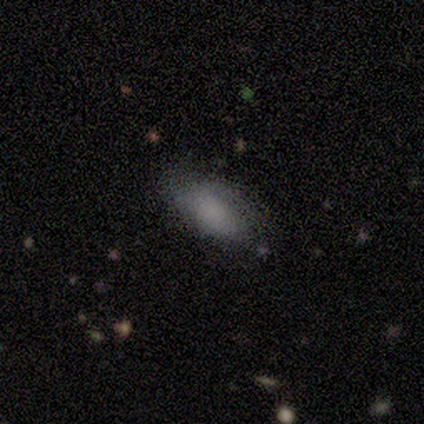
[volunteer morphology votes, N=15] Smooth or featured: smooth — 87% (featured or disk — 7%)
How rounded: in between — 77% (cigar-shaped — 23%)
Merging: none — 64% (minor disturbance — 29%)